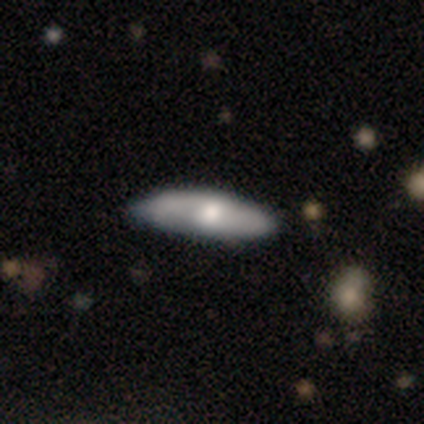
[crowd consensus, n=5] smooth_or_featured: smooth (p=0.60) [alt: featured or disk p=0.40]
how_rounded: in between (p=1.00)
merging: none (p=0.60) [alt: minor disturbance p=0.40]